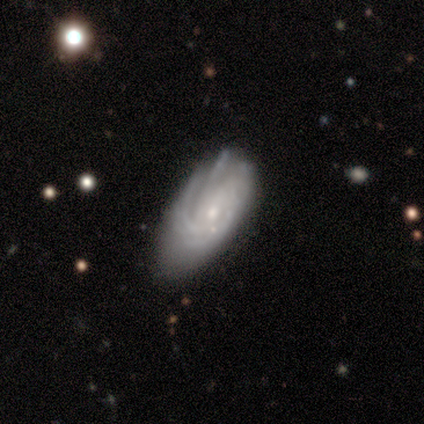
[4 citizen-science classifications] smooth 50% (tied), featured or disk 50% (tied), star or artifact 0%. Down the decision tree: how rounded — in between (100%); merging — minor disturbance (50%).